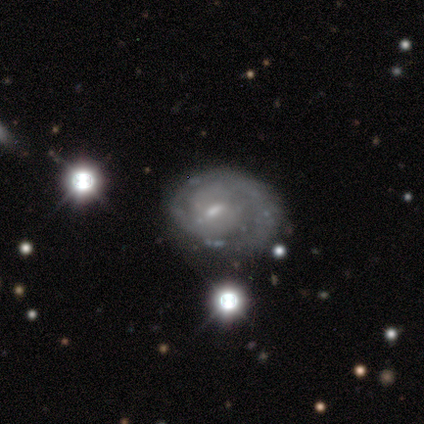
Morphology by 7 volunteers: Smooth or featured? featured or disk (86%)
Edge-on disk? no (100%)
Bar? no (67%)
Spiral arms? yes (100%)
Spiral winding? medium (83%)
Spiral arm count? 2 (67%)
Bulge size? small (83%)
Merging? none (43%)